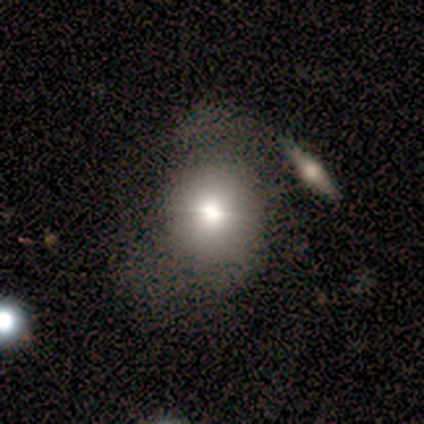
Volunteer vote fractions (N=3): Morphology: type=smooth (33%, tied with featured or disk and star or artifact); roundness=round (100%); merging=none (50%, tied with merger).